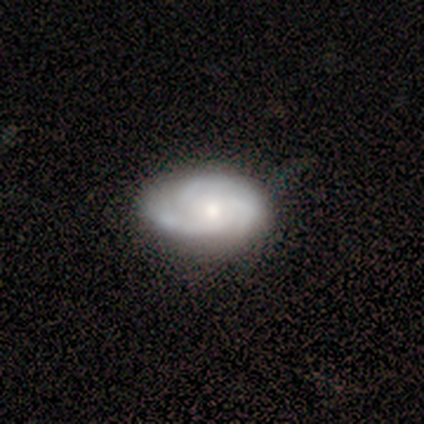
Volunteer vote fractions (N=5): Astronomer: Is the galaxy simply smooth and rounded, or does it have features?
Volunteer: featured or disk — 80%.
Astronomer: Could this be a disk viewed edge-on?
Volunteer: no — 100%.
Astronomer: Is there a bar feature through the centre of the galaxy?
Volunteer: weak — 50%, tied with no at 50%.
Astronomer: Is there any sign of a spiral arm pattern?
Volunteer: yes — 100%.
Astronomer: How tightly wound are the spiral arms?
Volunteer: medium — 75%.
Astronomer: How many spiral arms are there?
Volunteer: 3 — 75%.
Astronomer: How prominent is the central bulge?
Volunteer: moderate — 100%.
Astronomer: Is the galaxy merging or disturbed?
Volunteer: none — 60% (runner-up: major disturbance, 40%).